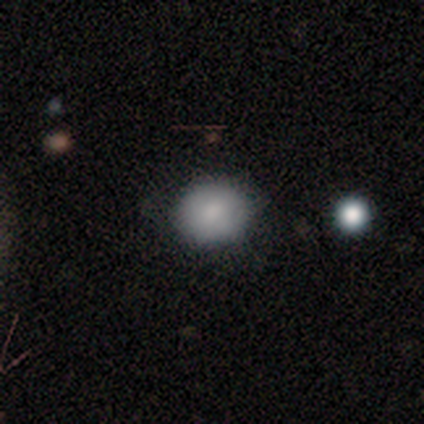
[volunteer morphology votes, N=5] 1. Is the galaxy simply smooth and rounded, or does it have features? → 60% smooth, 20% featured or disk, 20% star or artifact.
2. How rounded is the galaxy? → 100% round, 0% in between, 0% cigar-shaped.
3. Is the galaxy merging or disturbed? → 75% none, 25% merger, 0% minor disturbance, 0% major disturbance.